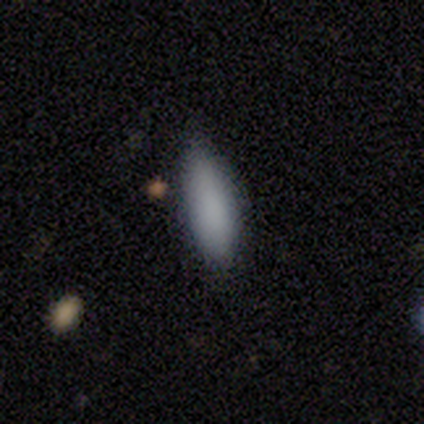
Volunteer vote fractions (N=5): Smooth or featured? 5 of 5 (100%) said smooth. How rounded? 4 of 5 (80%) said cigar-shaped. Merging? 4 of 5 (80%) said none.